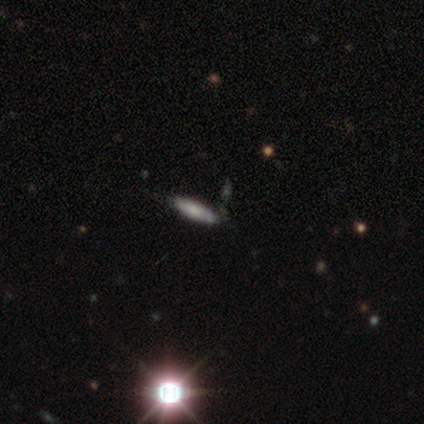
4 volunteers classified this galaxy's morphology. Smooth or featured? 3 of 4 (75%) said smooth. How rounded? 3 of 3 (100%) said cigar-shaped. Merging? 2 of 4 (50%, tied with minor disturbance) said none.